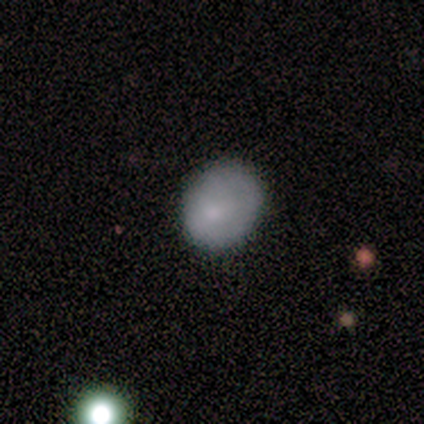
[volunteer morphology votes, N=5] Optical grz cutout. It shows a smooth galaxy with no disk features (100%) that is in between round and cigar-shaped (80%). Merging: none (100%).